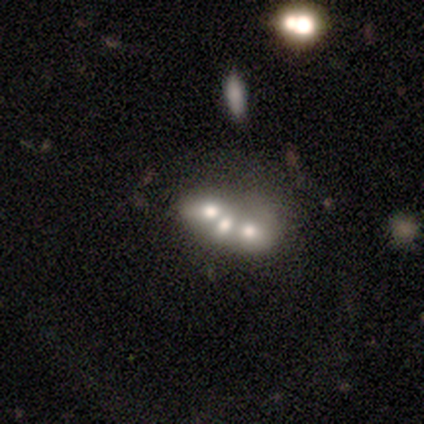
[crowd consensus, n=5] Smooth or featured? star or artifact (80%)